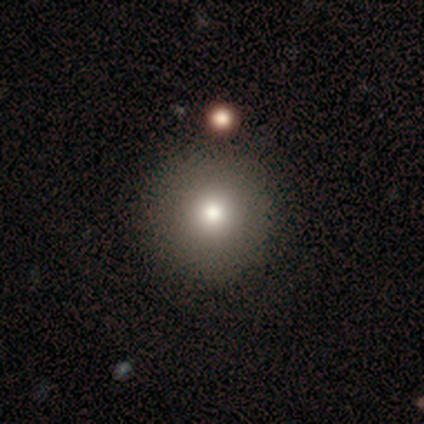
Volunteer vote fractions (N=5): smooth-or-featured: smooth: 60% | featured or disk: 20% | star or artifact: 20%
  how-rounded: round: 100% | in between: 0% | cigar-shaped: 0%
  merging: none: 100% | minor disturbance: 0% | major disturbance: 0% | merger: 0%